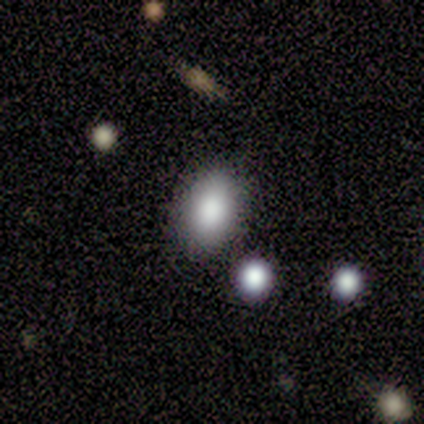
Morphology: type=smooth (67%); roundness=in between (100%); merging=none (100%).